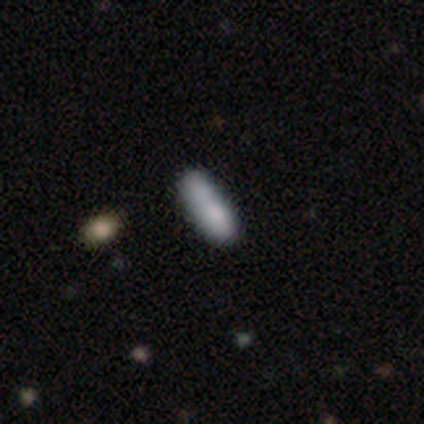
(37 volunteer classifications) smooth_or_featured: smooth (p=0.78) [alt: featured or disk p=0.11]
how_rounded: in between (p=0.48) [tied with: cigar-shaped p=0.48]
merging: none (p=0.73) [alt: minor disturbance p=0.15]